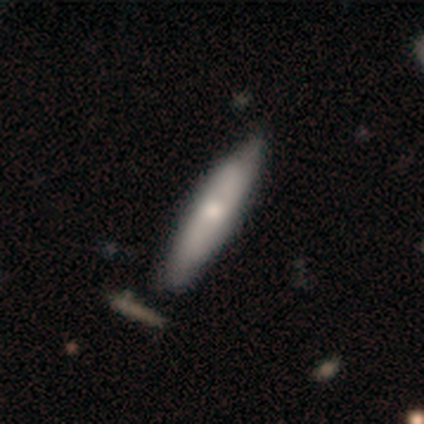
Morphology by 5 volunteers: smooth-or-featured: smooth: 40% (tied) | featured or disk: 40% (tied) | star or artifact: 20%
  how-rounded: in between: 50% (tied) | cigar-shaped: 50% (tied) | round: 0%
  merging: none: 75% | minor disturbance: 25% | major disturbance: 0% | merger: 0%